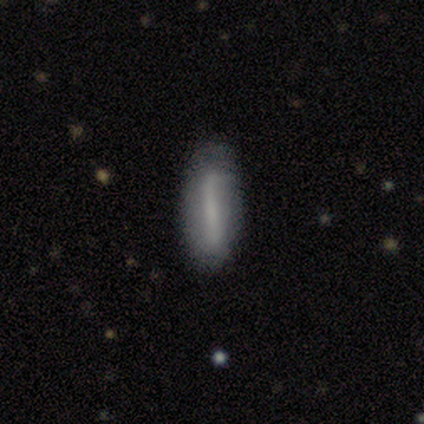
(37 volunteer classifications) smooth_or_featured: smooth (p=0.51) [alt: featured or disk p=0.35]
how_rounded: cigar-shaped (p=0.58) [alt: in between p=0.42]
merging: none (p=0.72) [alt: minor disturbance p=0.22]